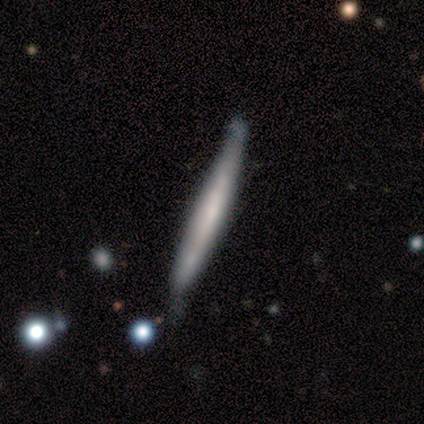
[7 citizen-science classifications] A smooth galaxy with no disk features (71%) that is cigar-shaped (100%).

Vote fractions:
- Smooth or featured? smooth: 71% / featured or disk: 29% / star or artifact: 0%
- How rounded? cigar-shaped: 100% / round: 0% / in between: 0%
- Merging? none: 71% / minor disturbance: 29% / major disturbance: 0% / merger: 0%